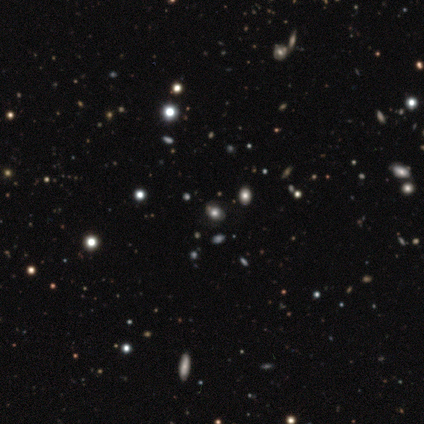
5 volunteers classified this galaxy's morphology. Volunteers were most divided on "smooth or featured": smooth: 60%, star or artifact: 40%, featured or disk: 0%. More confident: how rounded — in between (100%); merging — none (100%).